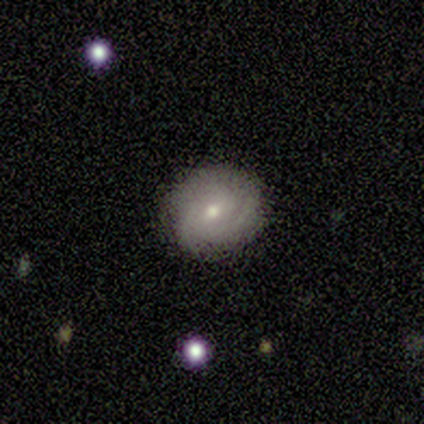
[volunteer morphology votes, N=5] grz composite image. It shows a featured or disk galaxy (60%) with a weak bar (67%), 2 (50%, tied with can't tell) tight (100%) spiral arms (67%) and a small central bulge (100%). Merging: none (100%).